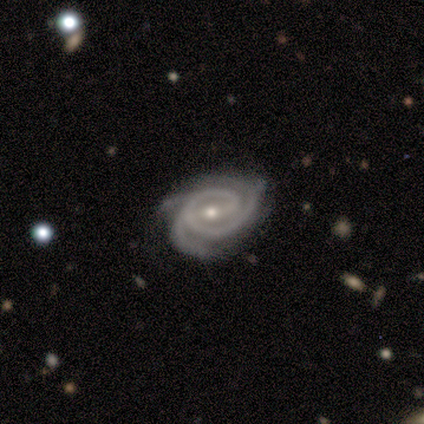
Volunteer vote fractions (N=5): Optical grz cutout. It shows a featured or disk galaxy (100%) with a weak bar (40%, tied with no), 3 (60%) tight (80%) spiral arms (100%) and a small central bulge (100%). Merging: none (40%, tied with minor disturbance).